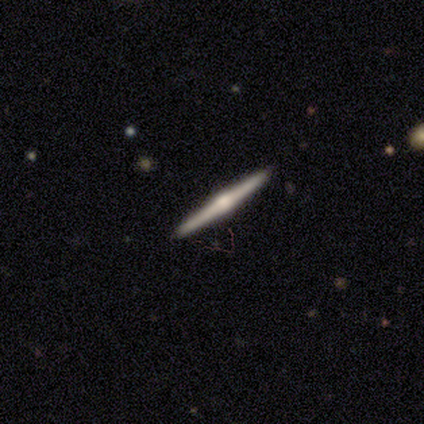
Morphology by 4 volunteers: A featured or disk galaxy (75%) viewed edge-on (100%) with a rounded central bulge (100%).

Vote fractions:
- Smooth or featured? featured or disk: 75% / smooth: 25% / star or artifact: 0%
- Edge-on disk? yes: 100% / no: 0%
- Edge-on bulge? rounded: 100% / boxy: 0% / none: 0%
- Merging? none: 100% / minor disturbance: 0% / major disturbance: 0% / merger: 0%